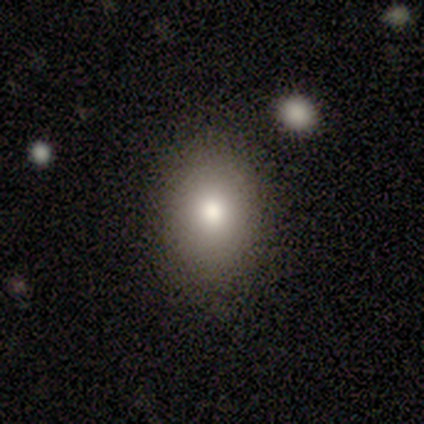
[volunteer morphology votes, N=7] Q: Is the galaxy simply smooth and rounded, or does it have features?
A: smooth — 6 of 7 (86%).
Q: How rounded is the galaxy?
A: in between — 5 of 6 (83%).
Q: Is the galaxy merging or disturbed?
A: none — 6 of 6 (100%).